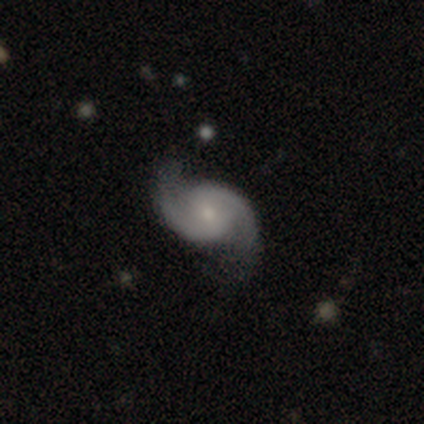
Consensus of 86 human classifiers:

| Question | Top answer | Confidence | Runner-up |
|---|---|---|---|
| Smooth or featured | featured or disk | 93% | smooth (3%) |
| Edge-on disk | no | 100% | — |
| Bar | no | 61% | weak (35%) |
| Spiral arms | yes | 96% | no (4%) |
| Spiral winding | loose | 45% | medium (39%) |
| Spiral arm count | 2 | 97% | 1 (1%) |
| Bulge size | small | 68% | moderate (26%) |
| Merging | none | 73% | minor disturbance (16%) |